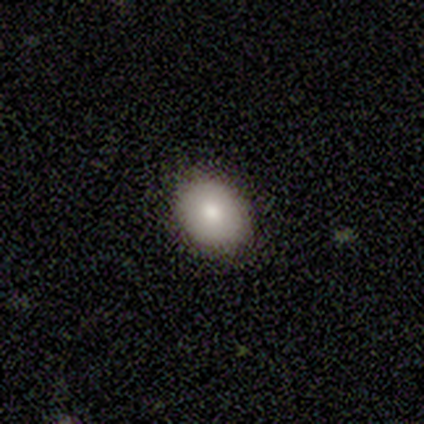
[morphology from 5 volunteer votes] smooth_or_featured: smooth (p=0.80) [alt: featured or disk p=0.20]
how_rounded: in between (p=0.75) [alt: round p=0.25]
merging: none (p=1.00)